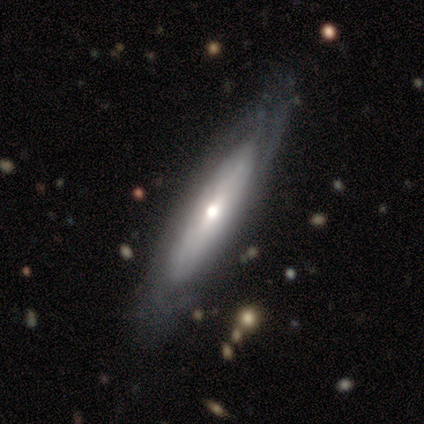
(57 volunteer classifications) Smooth or featured? featured or disk (74%)
Edge-on disk? no (64%)
Bar? no (74%)
Spiral arms? yes (56%)
Spiral winding? tight (60%)
Spiral arm count? can't tell (60%)
Bulge size? moderate (56%)
Merging? none (81%)